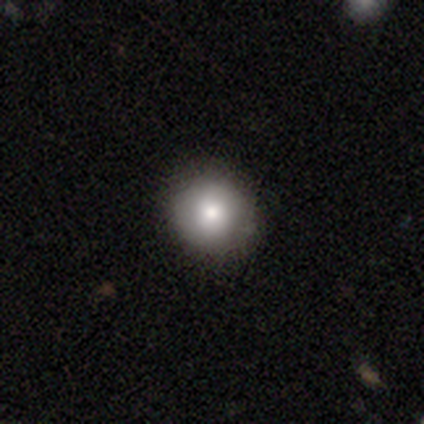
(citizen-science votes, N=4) Morphology: type=smooth (100%); roundness=round (100%); merging=none (75%).